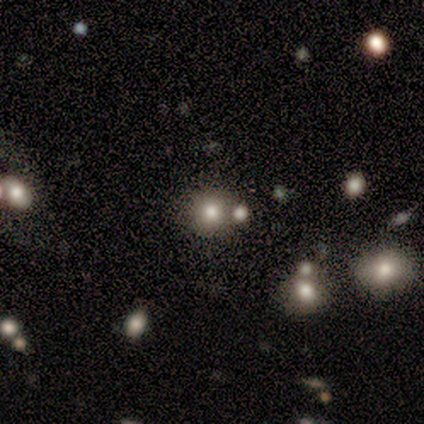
Q: Smooth or featured?
A: smooth (80%); runner-up: star or artifact (20%)
Q: How rounded?
A: round (100%)
Q: Merging?
A: none (100%)